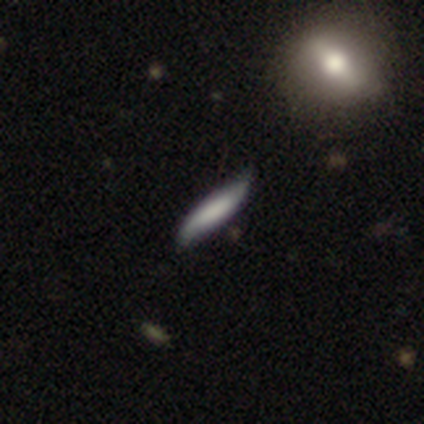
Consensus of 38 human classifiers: smooth_or_featured: smooth (p=0.58) [alt: featured or disk p=0.42]
how_rounded: cigar-shaped (p=0.91) [alt: in between p=0.09]
merging: none (p=0.66) [alt: minor disturbance p=0.34]